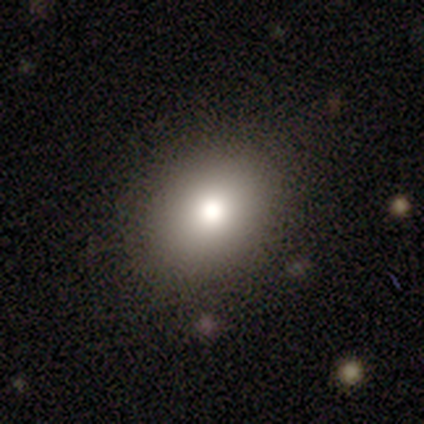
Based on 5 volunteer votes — Smooth or featured: smooth — 100%
How rounded: in between — 60% (round — 40%)
Merging: none — 60% (minor disturbance — 40%)